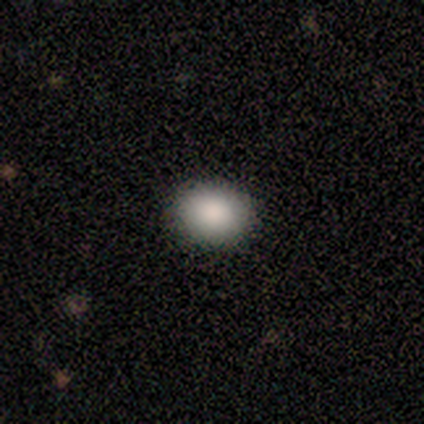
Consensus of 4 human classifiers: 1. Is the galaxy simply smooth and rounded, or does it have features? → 75% smooth, 25% star or artifact, 0% featured or disk.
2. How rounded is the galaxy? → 67% round, 33% in between, 0% cigar-shaped.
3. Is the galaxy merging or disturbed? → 100% none, 0% minor disturbance, 0% major disturbance, 0% merger.